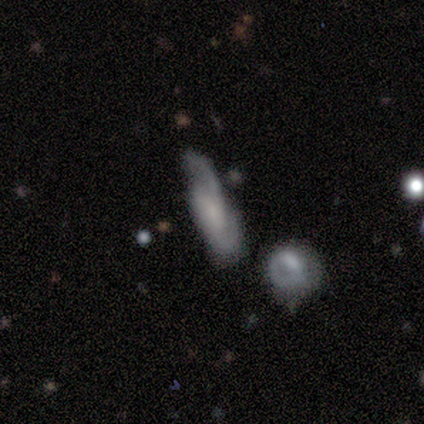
Morphology: type=smooth (67%); roundness=in between (50%, tied with cigar-shaped); merging=none (100%).